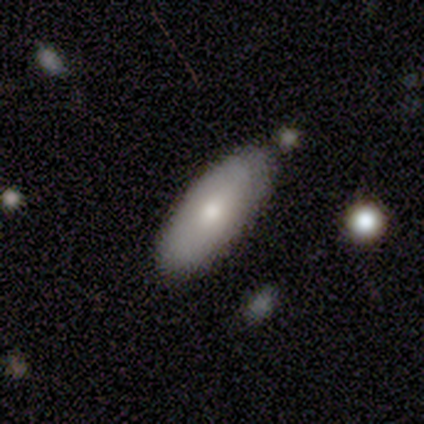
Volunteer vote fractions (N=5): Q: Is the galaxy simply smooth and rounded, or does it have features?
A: smooth — 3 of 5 (60%).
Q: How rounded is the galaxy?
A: in between — 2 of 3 (67%).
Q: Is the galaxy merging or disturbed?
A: none — 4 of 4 (100%).